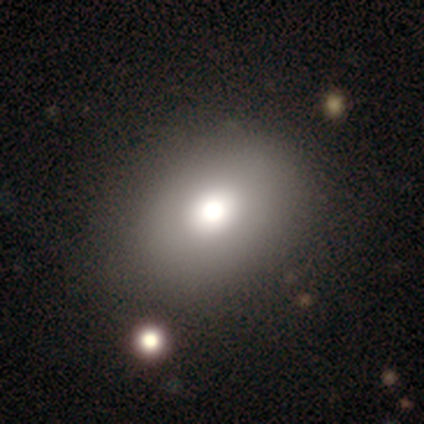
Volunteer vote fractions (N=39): Smooth or featured?
  - smooth: 72% *
  - featured or disk: 21%
  - star or artifact: 8%
How rounded?
  - in between: 79% *
  - round: 21%
  - cigar-shaped: 0%
Merging?
  - none: 44% *
  - merger: 11%
  - major disturbance: 8%
  - minor disturbance: 6%